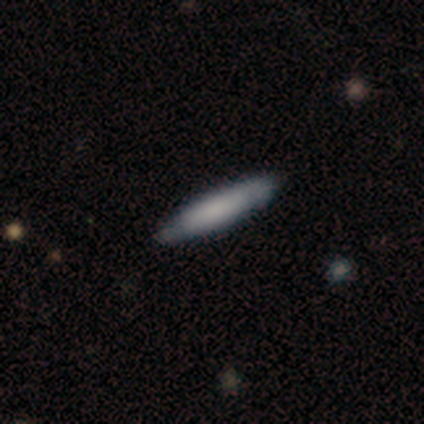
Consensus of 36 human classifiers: This is likely a smooth galaxy (61%). How rounded: clearly cigar-shaped (86%). Merging: clearly none (94%).